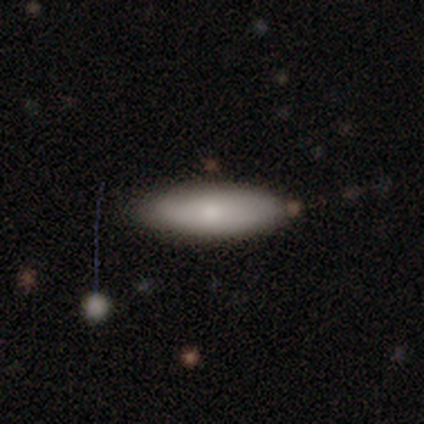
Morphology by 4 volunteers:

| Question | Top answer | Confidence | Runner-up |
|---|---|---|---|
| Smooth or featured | smooth | 100% | — |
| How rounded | cigar-shaped | 75% | in between (25%) |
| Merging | none | 75% | minor disturbance (25%) |